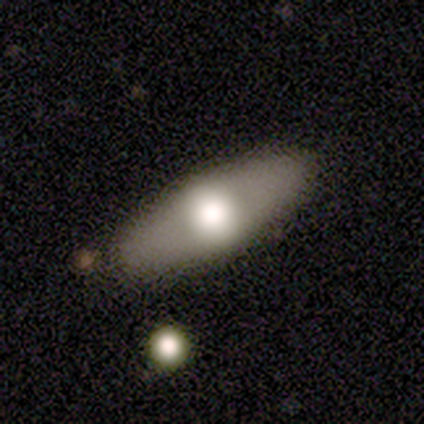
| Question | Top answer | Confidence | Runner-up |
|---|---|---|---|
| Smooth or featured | smooth | 60% | featured or disk (20%) |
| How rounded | cigar-shaped | 67% | in between (33%) |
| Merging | none | 100% | — |